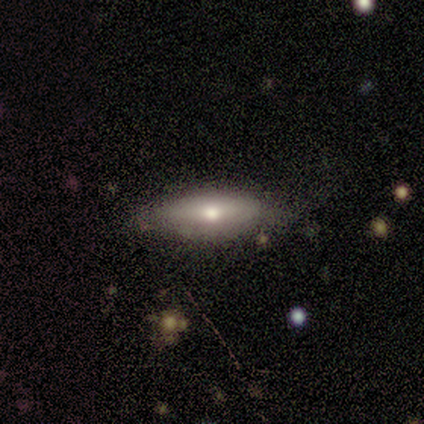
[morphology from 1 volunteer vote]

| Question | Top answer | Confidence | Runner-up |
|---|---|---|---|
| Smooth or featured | smooth | 100% | — |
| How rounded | in between | 100% | — |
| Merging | minor disturbance | 100% | — |